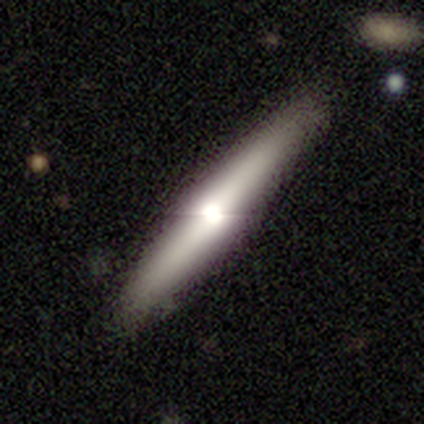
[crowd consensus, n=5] This appears to be a smooth galaxy with no disk features (60%) that is cigar-shaped (100%). Merging: none (75%).